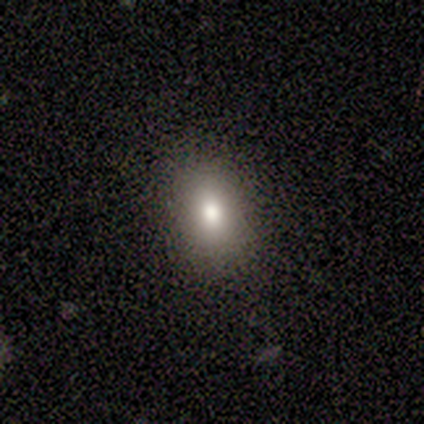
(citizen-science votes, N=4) Overall: smooth (100%). How rounded: round (75%). Merging: none (100%).